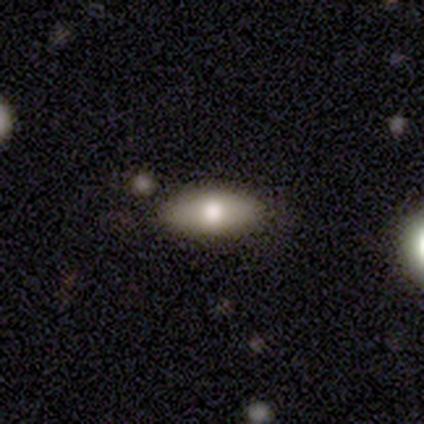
Smooth or featured?
  - smooth: 68% *
  - featured or disk: 22%
  - star or artifact: 10%
How rounded?
  - in between: 93% *
  - round: 4%
  - cigar-shaped: 4%
Merging?
  - none: 89% *
  - minor disturbance: 6%
  - merger: 6%
  - major disturbance: 0%